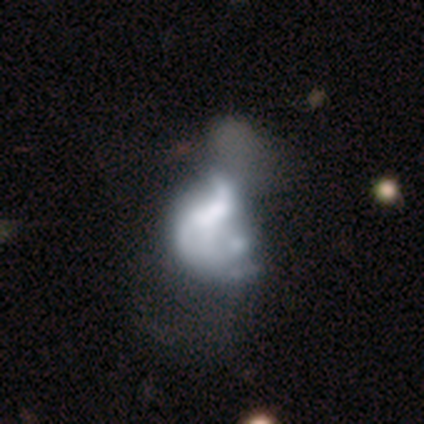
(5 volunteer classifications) Smooth or featured? 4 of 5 (80%) said featured or disk. Edge-on disk? 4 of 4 (100%) said no. Bar? 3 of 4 (75%) said no. Spiral arms? 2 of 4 (50%, tied with no) said yes. Spiral winding? 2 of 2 (100%) said loose. Spiral arm count? 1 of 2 (50%, tied with can't tell) said 2. Bulge size? 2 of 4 (50%) said large. Merging? 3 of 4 (75%) said merger.